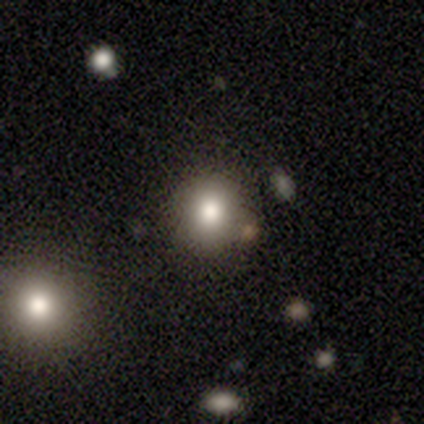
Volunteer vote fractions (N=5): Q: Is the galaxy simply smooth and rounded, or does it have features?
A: smooth — 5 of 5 (100%).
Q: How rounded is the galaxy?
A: round — 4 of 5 (80%).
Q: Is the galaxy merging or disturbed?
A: none — 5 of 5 (100%).